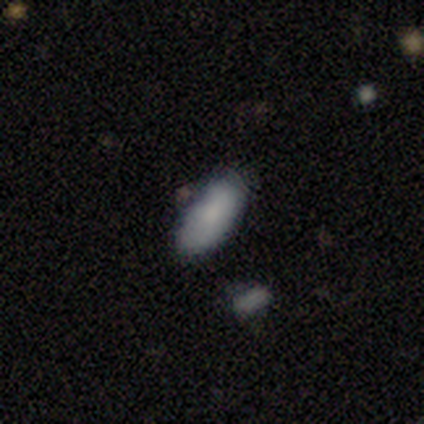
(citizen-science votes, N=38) Volunteers were most divided on "merging": none: 69%, minor disturbance: 17%, major disturbance: 11%, merger: 3%. More confident: smooth or featured — smooth (87%); how rounded — in between (85%).